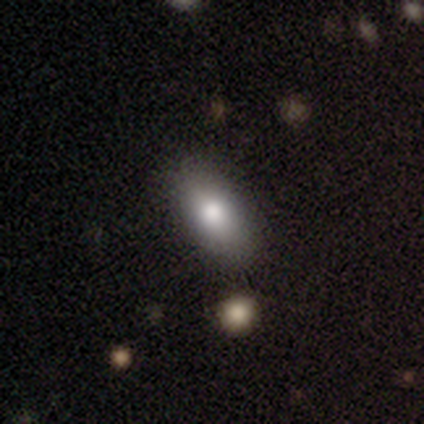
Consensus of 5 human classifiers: Smooth or featured? smooth (80%)
How rounded? in between (100%)
Merging? none (80%)